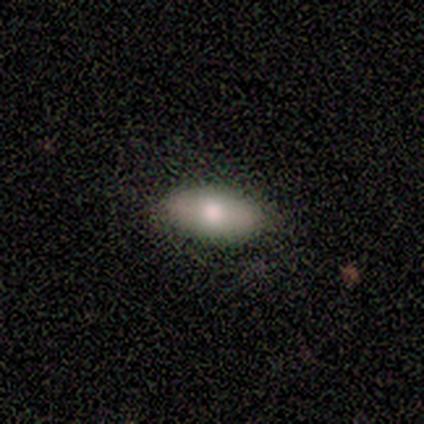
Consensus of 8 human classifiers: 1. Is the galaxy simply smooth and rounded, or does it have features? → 62% smooth, 25% featured or disk, 12% star or artifact.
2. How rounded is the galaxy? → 80% in between, 20% round, 0% cigar-shaped.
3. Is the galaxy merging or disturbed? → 86% none, 14% minor disturbance, 0% major disturbance, 0% merger.